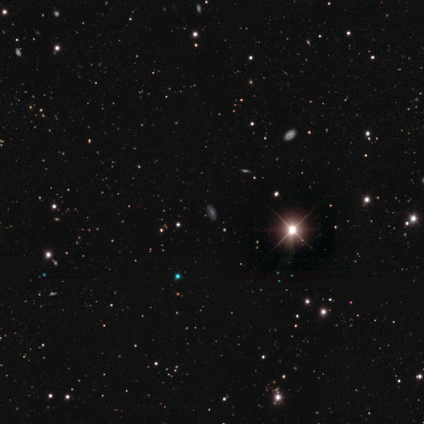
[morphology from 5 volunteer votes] A star or artifact, not a galaxy (80%).

Vote fractions:
- Smooth or featured? star or artifact: 80% / featured or disk: 20% / smooth: 0%